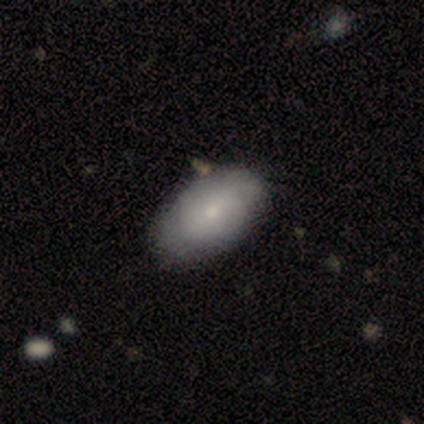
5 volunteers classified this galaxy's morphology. Smooth or featured? 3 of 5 (60%) said smooth. How rounded? 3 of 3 (100%) said in between. Merging? 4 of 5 (80%) said none.